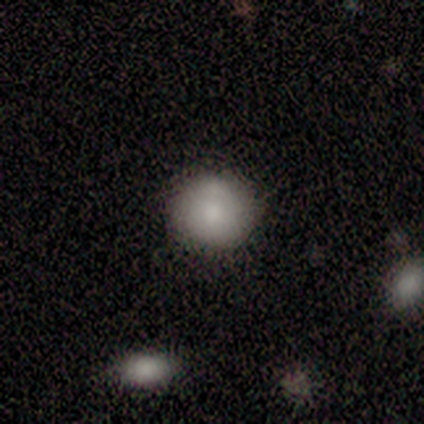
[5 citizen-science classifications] smooth-or-featured: smooth: 60% | featured or disk: 40% | star or artifact: 0%
  how-rounded: round: 100% | in between: 0% | cigar-shaped: 0%
  merging: none: 100% | minor disturbance: 0% | major disturbance: 0% | merger: 0%